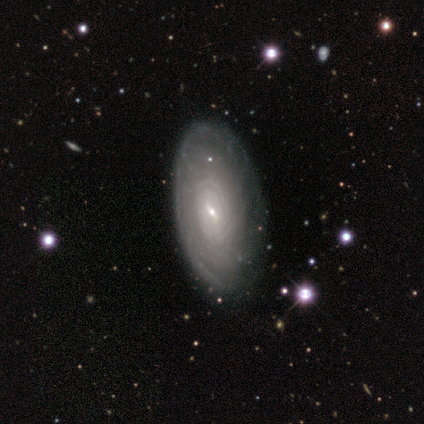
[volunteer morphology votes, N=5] Smooth or featured?
  - featured or disk: 80% *
  - smooth: 20%
  - star or artifact: 0%
Edge-on disk?
  - no: 75% *
  - yes: 25%
Bar?
  - strong: 33% * (tied)
  - weak: 33% * (tied)
  - no: 33% * (tied)
Spiral arms?
  - yes: 100% *
  - no: 0%
Spiral winding?
  - tight: 100% *
  - medium: 0%
  - loose: 0%
Spiral arm count?
  - can't tell: 67% *
  - more than 4: 33%
  - 1: 0%
  - 2: 0%
  - 3: 0%
  - 4: 0%
Bulge size?
  - small: 100% *
  - dominant: 0%
  - large: 0%
  - moderate: 0%
  - none: 0%
Merging?
  - none: 100% *
  - minor disturbance: 0%
  - major disturbance: 0%
  - merger: 0%